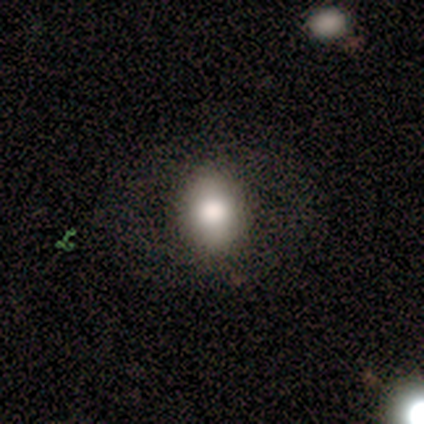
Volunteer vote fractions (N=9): smooth_or_featured: smooth (p=0.67) [alt: star or artifact p=0.33]
how_rounded: round (p=0.50) [tied with: in between p=0.50]
merging: none (p=0.83) [alt: minor disturbance p=0.17]